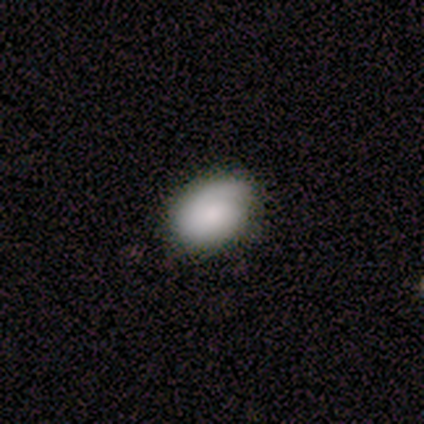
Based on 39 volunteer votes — smooth-or-featured: smooth: 69% | featured or disk: 28% | star or artifact: 3%
  how-rounded: in between: 89% | round: 11% | cigar-shaped: 0%
  merging: none: 71% | minor disturbance: 29% | major disturbance: 0% | merger: 0%